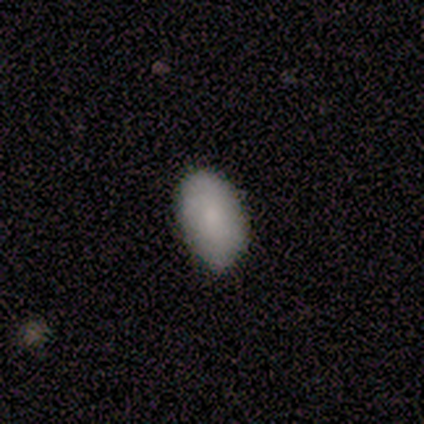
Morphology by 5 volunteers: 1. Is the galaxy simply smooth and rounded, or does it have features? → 100% smooth, 0% featured or disk, 0% star or artifact.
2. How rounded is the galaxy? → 100% in between, 0% round, 0% cigar-shaped.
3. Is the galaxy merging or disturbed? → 60% none, 40% minor disturbance, 0% major disturbance, 0% merger.